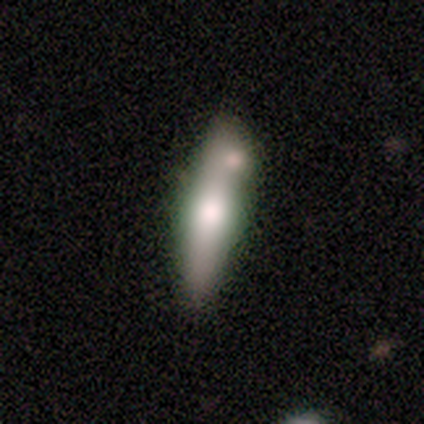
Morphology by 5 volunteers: type=featured or disk (80%); edge-on=yes (75%); edge-on bulge=rounded (100%); merging=merger (60%).